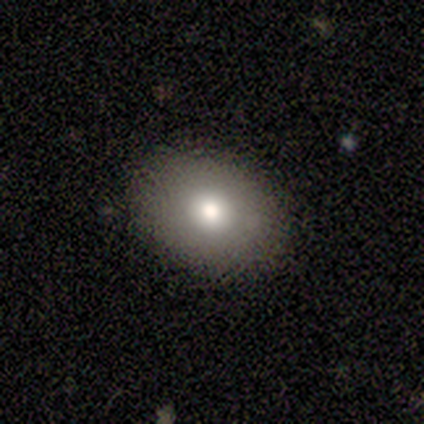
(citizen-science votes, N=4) A smooth galaxy with no disk features (100%) that is round (50%, tied with in between). Merging: none (75%).